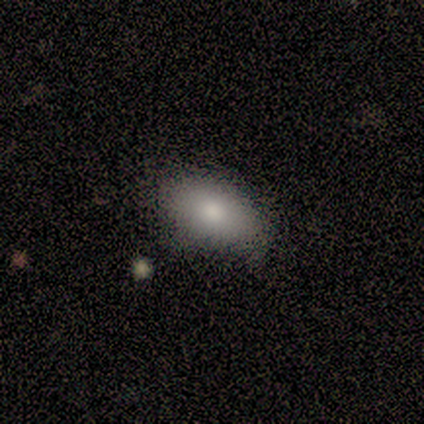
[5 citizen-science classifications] A smooth galaxy with no disk features (100%) that is in between round and cigar-shaped (100%).

Vote fractions:
- Smooth or featured? smooth: 100% / featured or disk: 0% / star or artifact: 0%
- How rounded? in between: 100% / round: 0% / cigar-shaped: 0%
- Merging? none: 80% / minor disturbance: 20% / major disturbance: 0% / merger: 0%